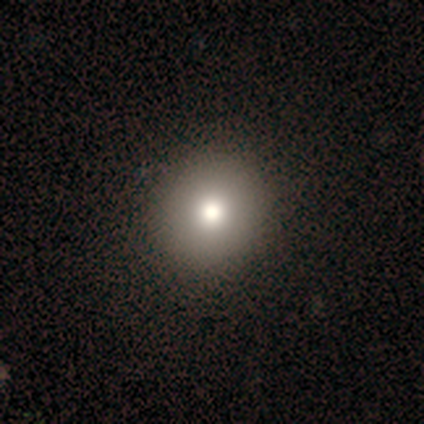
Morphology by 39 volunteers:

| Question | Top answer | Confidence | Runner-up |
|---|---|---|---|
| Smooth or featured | smooth | 85% | featured or disk (8%) |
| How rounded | round | 88% | in between (12%) |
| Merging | none | 64% | minor disturbance (3%) |